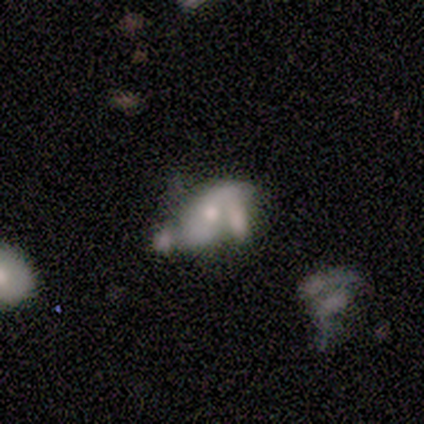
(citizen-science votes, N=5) featured or disk 60%, smooth 20%, star or artifact 20%. Down the decision tree: edge-on disk — no (100%); bar — no (67%); spiral arms — yes (67%); spiral arm count — 2 (50%, tied with can't tell); spiral winding — loose (100%); bulge size — moderate (67%); merging — major disturbance (50%).